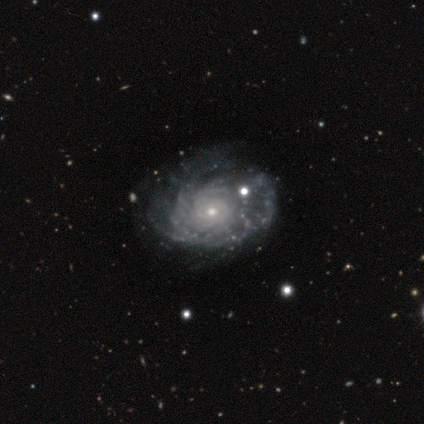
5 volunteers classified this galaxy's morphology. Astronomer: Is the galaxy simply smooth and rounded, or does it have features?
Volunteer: featured or disk — 100%.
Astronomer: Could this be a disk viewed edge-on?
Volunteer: no — 100%.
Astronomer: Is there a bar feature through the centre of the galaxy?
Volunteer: no — 100%.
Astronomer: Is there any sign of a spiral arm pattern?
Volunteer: yes — 100%.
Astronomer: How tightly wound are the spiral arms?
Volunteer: tight — 80%.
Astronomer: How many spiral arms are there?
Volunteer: can't tell — 60% (runner-up: more than 4, 40%).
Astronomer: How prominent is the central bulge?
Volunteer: small — 100%.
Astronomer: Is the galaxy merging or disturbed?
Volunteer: none — 100%.